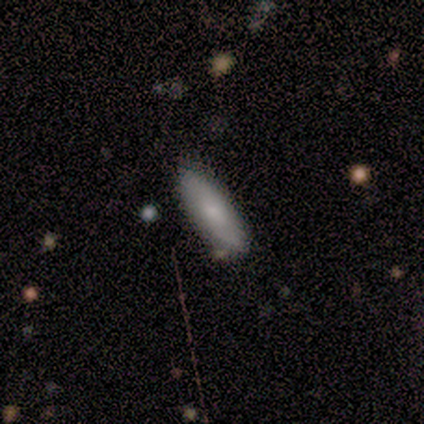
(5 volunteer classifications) This is clearly a smooth galaxy (80%). How rounded: likely in between (75%). Merging: clearly none (100%).